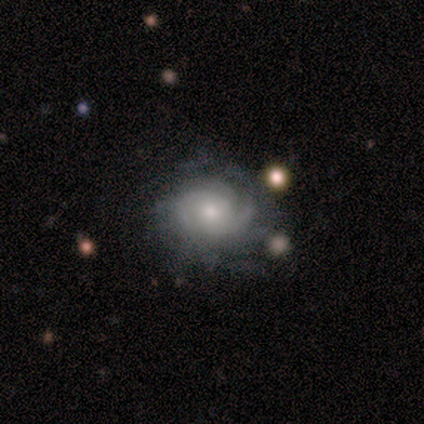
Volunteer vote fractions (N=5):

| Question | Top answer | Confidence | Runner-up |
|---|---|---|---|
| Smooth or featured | featured or disk | 100% | — |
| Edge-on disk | no | 100% | — |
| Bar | no | 80% | weak (20%) |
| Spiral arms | yes | 100% | — |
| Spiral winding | tight | 60% | medium (20%) |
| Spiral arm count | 2 | 60% | can't tell (40%) |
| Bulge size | small | 80% | moderate (20%) |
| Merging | none | 100% | — |